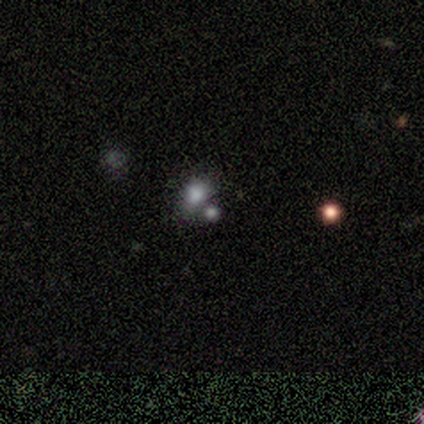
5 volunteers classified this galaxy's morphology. Smooth or featured?
  - smooth: 100% *
  - featured or disk: 0%
  - star or artifact: 0%
How rounded?
  - in between: 60% *
  - round: 40%
  - cigar-shaped: 0%
Merging?
  - none: 60% *
  - merger: 40%
  - minor disturbance: 0%
  - major disturbance: 0%